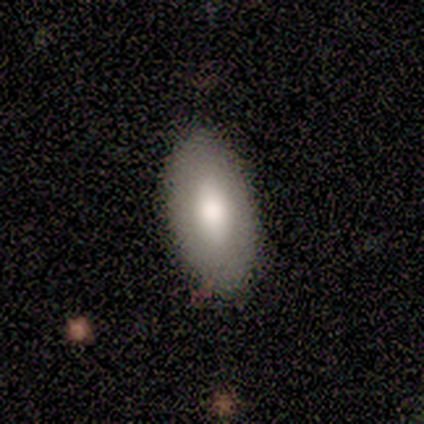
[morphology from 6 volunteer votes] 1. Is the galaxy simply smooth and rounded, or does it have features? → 83% smooth, 17% featured or disk, 0% star or artifact.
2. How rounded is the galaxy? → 100% in between, 0% round, 0% cigar-shaped.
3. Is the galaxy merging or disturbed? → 83% none, 17% minor disturbance, 0% major disturbance, 0% merger.